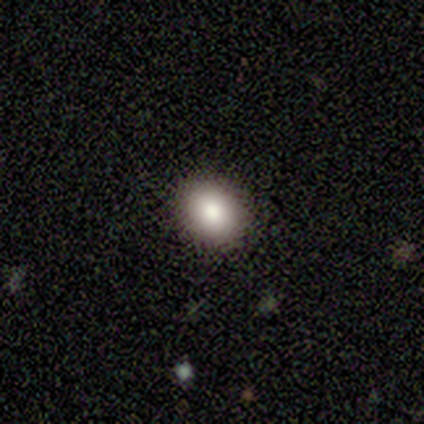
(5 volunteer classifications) This appears to be a smooth galaxy with no disk features (80%) that is round (75%). Merging: none (100%).